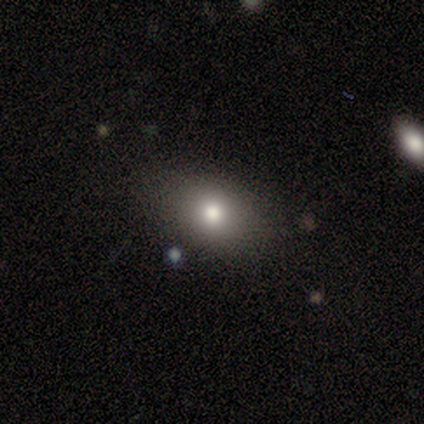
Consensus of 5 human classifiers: Overall: smooth (100%). How rounded: in between (60%; round 40%). Merging: none (100%).